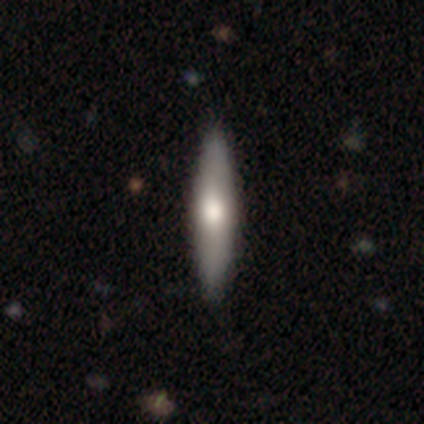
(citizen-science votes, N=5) Smooth or featured: smooth — 60% (star or artifact — 40%)
How rounded: cigar-shaped — 100%
Merging: none — 100%